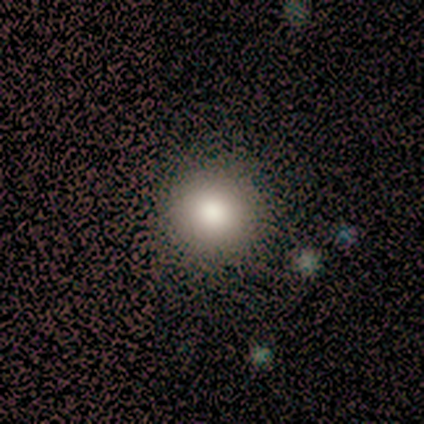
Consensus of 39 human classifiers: smooth 97%, star or artifact 3%, featured or disk 0%. Down the decision tree: how rounded — round (97%); merging — none (61%).